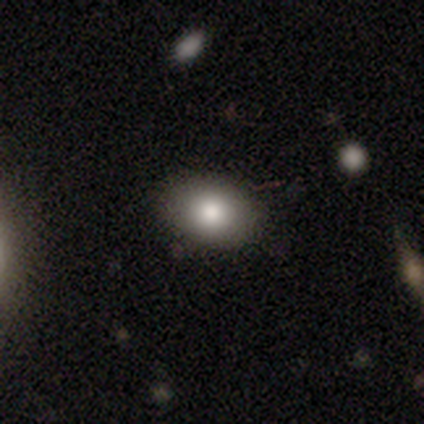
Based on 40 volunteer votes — Smooth or featured: smooth — 80% (star or artifact — 12%)
How rounded: in between — 66% (round — 34%)
Merging: none — 97% (minor disturbance — 3%)